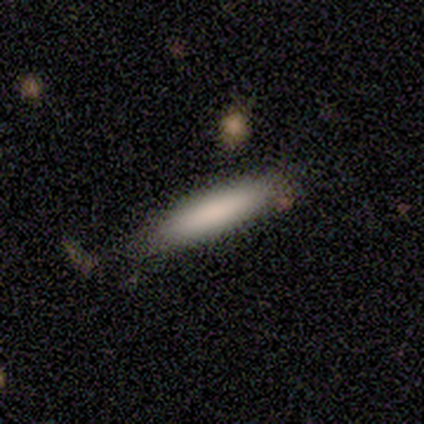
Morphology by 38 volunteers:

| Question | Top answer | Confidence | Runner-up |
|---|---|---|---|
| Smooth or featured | smooth | 87% | featured or disk (13%) |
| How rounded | cigar-shaped | 85% | in between (15%) |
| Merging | none | 63% | merger (5%) |